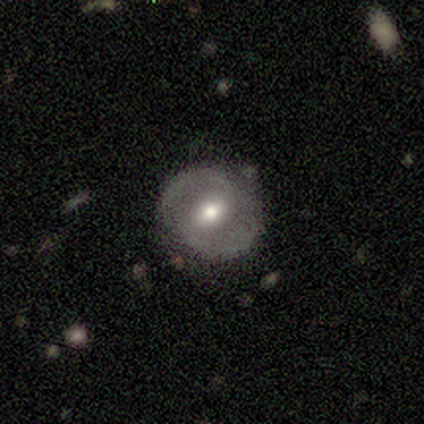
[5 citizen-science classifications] Smooth or featured?
  - featured or disk: 80% *
  - smooth: 20%
  - star or artifact: 0%
Edge-on disk?
  - no: 100% *
  - yes: 0%
Bar?
  - weak: 50% *
  - strong: 25%
  - no: 25%
Spiral arms?
  - yes: 75% *
  - no: 25%
Spiral winding?
  - tight: 67% *
  - medium: 33%
  - loose: 0%
Spiral arm count?
  - 2: 100% *
  - 1: 0%
  - 3: 0%
  - 4: 0%
  - more than 4: 0%
  - can't tell: 0%
Bulge size?
  - moderate: 100% *
  - dominant: 0%
  - large: 0%
  - small: 0%
  - none: 0%
Merging?
  - none: 100% *
  - minor disturbance: 0%
  - major disturbance: 0%
  - merger: 0%